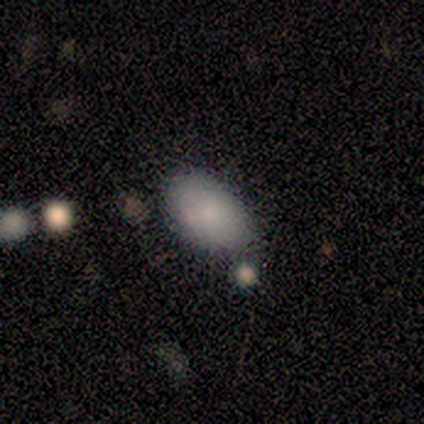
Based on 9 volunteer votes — Smooth or featured: smooth — 100%
How rounded: in between — 100%
Merging: none — 89% (minor disturbance — 11%)